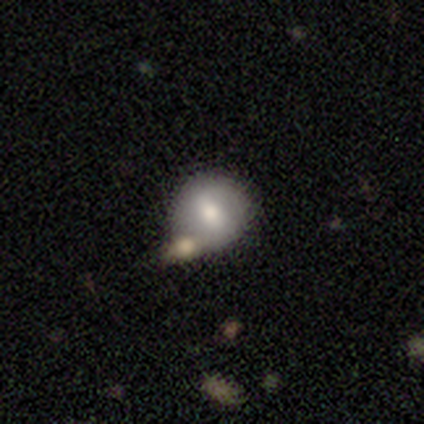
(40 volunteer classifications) Smooth or featured: smooth — 72% (featured or disk — 28%)
How rounded: round — 93% (in between — 7%)
Merging: none — 60% (merger — 30%)